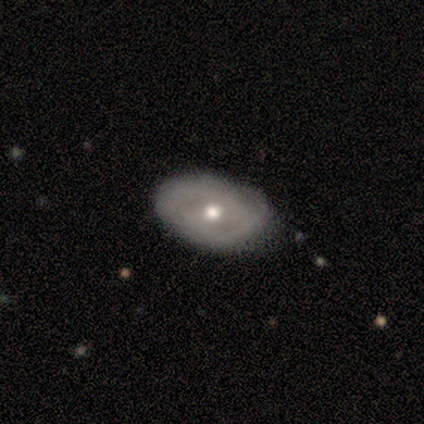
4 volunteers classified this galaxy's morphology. This is possibly a featured or disk galaxy (50%). It is possibly viewed edge-on (50%, tied with no). Edge-on bulge: clearly rounded (100%). Merging: likely none (67%).